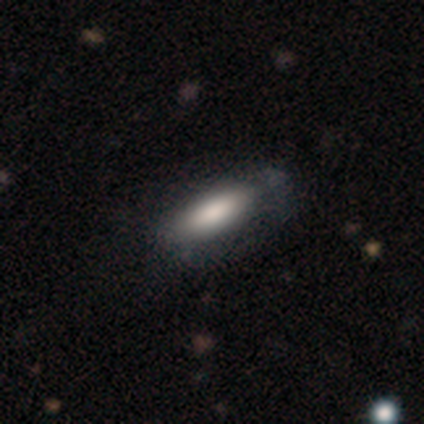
Smooth or featured? 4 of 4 (100%) said smooth. How rounded? 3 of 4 (75%) said in between. Merging? 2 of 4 (50%) said minor disturbance.